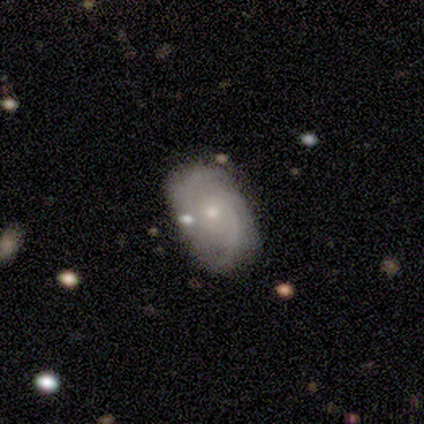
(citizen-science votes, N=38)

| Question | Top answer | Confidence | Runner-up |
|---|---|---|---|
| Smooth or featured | featured or disk | 74% | smooth (18%) |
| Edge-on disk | no | 93% | yes (7%) |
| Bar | no | 54% | weak (42%) |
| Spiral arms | yes | 88% | no (12%) |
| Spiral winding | medium | 52% | tight (30%) |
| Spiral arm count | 2 | 48% | 3 (35%) |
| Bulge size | small | 69% | moderate (31%) |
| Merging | none | 66% | minor disturbance (31%) |